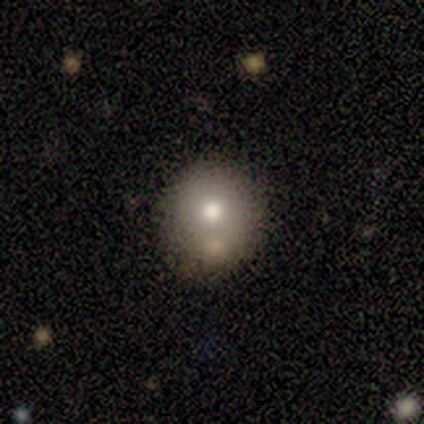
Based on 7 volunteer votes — Morphology: type=smooth (57%); roundness=round (50%, tied with in between); merging=none (80%).